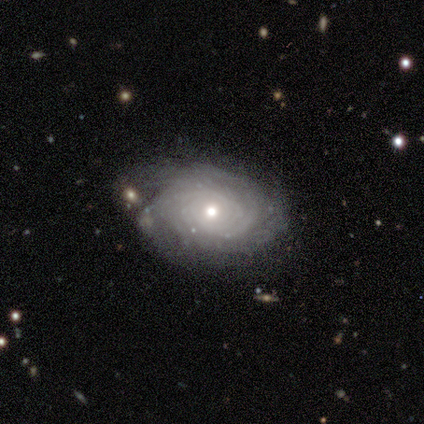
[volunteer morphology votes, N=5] Smooth or featured? 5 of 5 (100%) said featured or disk. Edge-on disk? 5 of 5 (100%) said no. Bar? 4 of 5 (80%) said no. Spiral arms? 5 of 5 (100%) said yes. Spiral winding? 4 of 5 (80%) said tight. Spiral arm count? 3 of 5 (60%) said can't tell. Bulge size? 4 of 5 (80%) said moderate. Merging? 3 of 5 (60%) said minor disturbance.